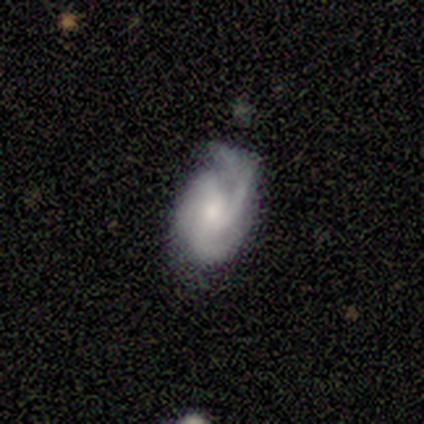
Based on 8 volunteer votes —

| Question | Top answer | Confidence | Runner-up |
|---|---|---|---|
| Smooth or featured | featured or disk | 100% | — |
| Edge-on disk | no | 100% | — |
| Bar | no | 75% | strong (12%) |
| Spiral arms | yes | 100% | — |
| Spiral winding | medium | 62% | tight (38%) |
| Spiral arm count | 3 | 88% | 4 (12%) |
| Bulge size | small | 50% | moderate (25%) |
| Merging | none | 50% | minor disturbance (38%) |